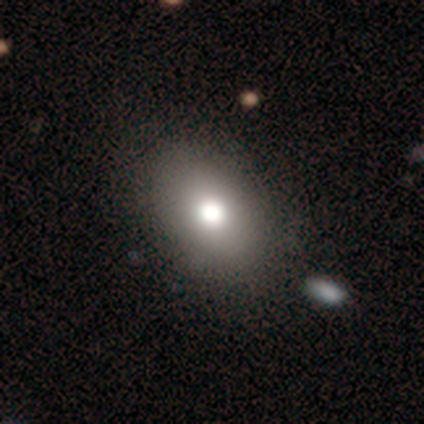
smooth-or-featured: smooth: 82% | featured or disk: 13% | star or artifact: 5%
  how-rounded: in between: 81% | round: 19% | cigar-shaped: 0%
  merging: none: 56% | minor disturbance: 6% | merger: 6% | major disturbance: 3%